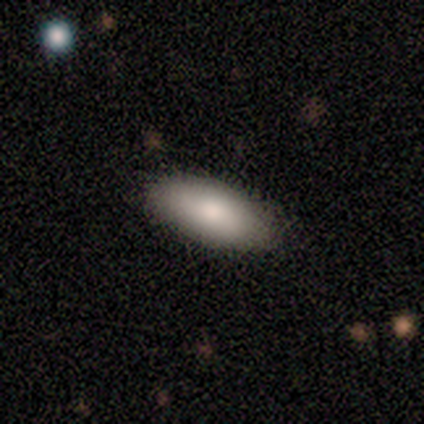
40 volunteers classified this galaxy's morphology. type=smooth (95%); roundness=in between (84%); merging=none (59%).